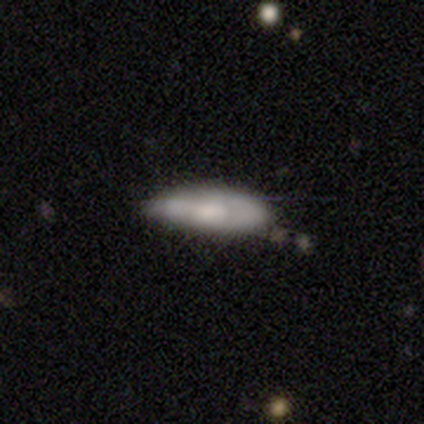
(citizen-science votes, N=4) smooth 75%, featured or disk 25%, star or artifact 0%. Down the decision tree: how rounded — in between (100%); merging — none (50%, tied with minor disturbance).